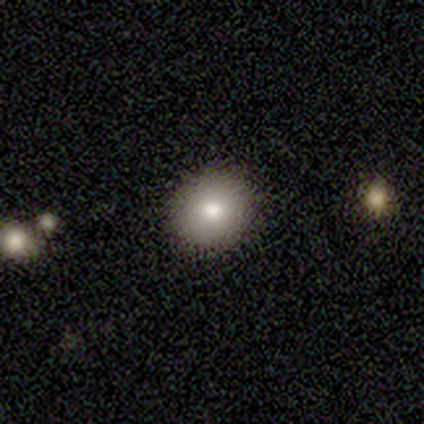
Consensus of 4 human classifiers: Volunteers were most divided on "how rounded" (2-way tie): round: 50%, in between: 50%, cigar-shaped: 0%. More confident: merging — none (100%); smooth or featured — smooth (50%).